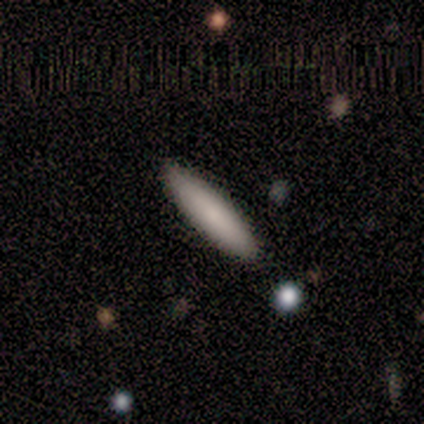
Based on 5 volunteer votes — Smooth or featured?
  - smooth: 80% *
  - featured or disk: 20%
  - star or artifact: 0%
How rounded?
  - cigar-shaped: 100% *
  - round: 0%
  - in between: 0%
Merging?
  - none: 100% *
  - minor disturbance: 0%
  - major disturbance: 0%
  - merger: 0%